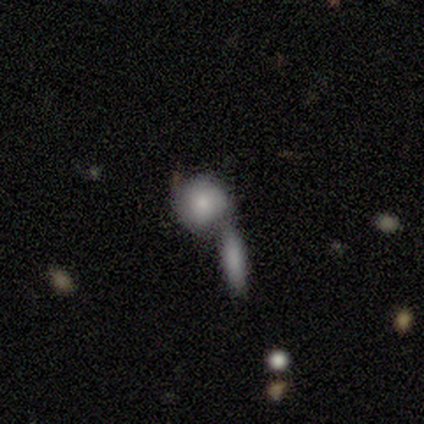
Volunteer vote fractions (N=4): Overall: smooth (75%). How rounded: round (67%; in between 33%). Merging: merger (75%).